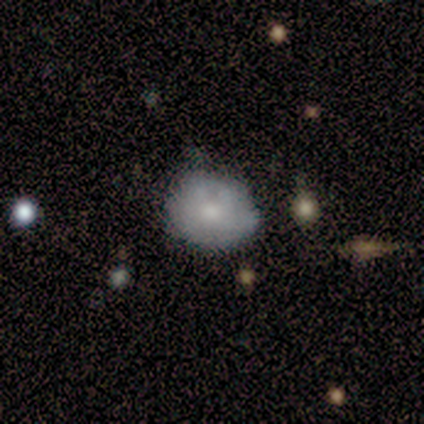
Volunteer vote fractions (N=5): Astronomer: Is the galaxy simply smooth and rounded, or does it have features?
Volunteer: smooth — 80%.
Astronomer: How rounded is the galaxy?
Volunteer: round — 100%.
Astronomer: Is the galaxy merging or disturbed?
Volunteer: none — 80%.